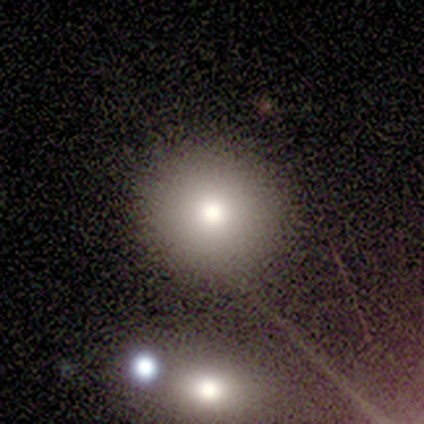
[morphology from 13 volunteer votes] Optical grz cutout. It shows a smooth galaxy with no disk features (77%) that is round (100%). Merging: none (92%).